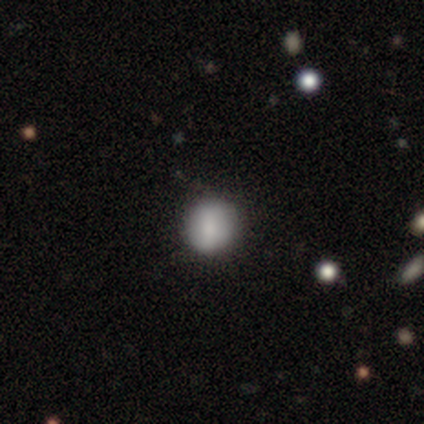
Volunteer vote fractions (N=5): This appears to be a smooth galaxy with no disk features (100%) that is round (100%). Merging: none (80%).